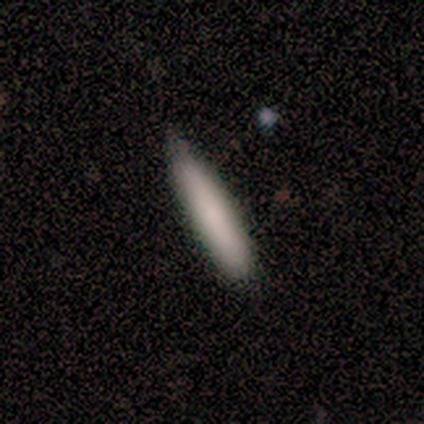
Volunteers were most divided on "merging": none: 63%, minor disturbance: 32%, merger: 5%, major disturbance: 0%. More confident: how rounded — cigar-shaped (91%); smooth or featured — smooth (80%).